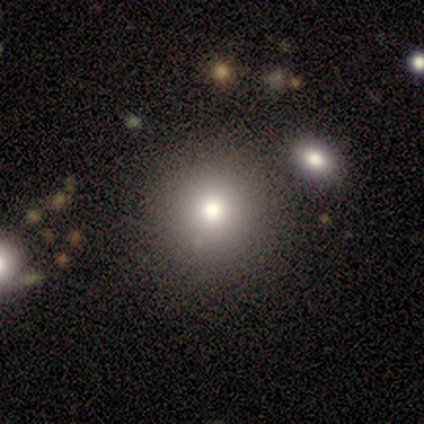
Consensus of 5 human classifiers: smooth_or_featured: smooth (p=0.60) [alt: featured or disk p=0.20]
how_rounded: round (p=0.67) [alt: in between p=0.33]
merging: none (p=0.75) [alt: minor disturbance p=0.25]